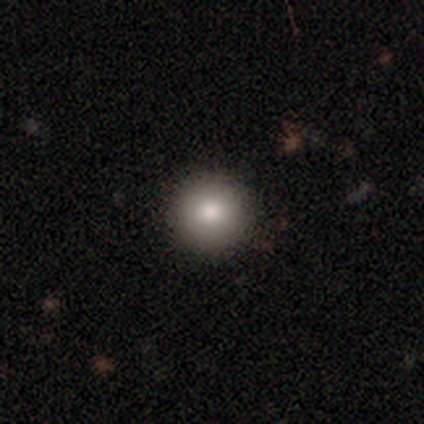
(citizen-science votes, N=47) Morphology: type=smooth (87%); roundness=round (98%); merging=none (95%).